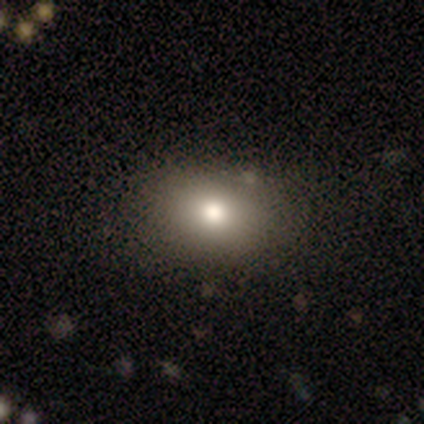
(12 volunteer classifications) smooth-or-featured: smooth: 92% | featured or disk: 8% | star or artifact: 0%
  how-rounded: in between: 73% | round: 27% | cigar-shaped: 0%
  merging: none: 92% | minor disturbance: 8% | major disturbance: 0% | merger: 0%